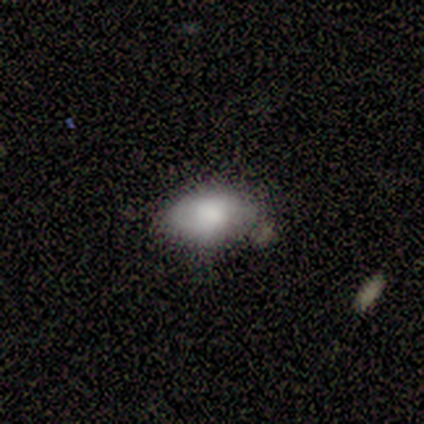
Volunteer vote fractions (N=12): Smooth or featured?
  - smooth: 75% *
  - featured or disk: 17%
  - star or artifact: 8%
How rounded?
  - in between: 100% *
  - round: 0%
  - cigar-shaped: 0%
Merging?
  - none: 64% *
  - minor disturbance: 36%
  - major disturbance: 0%
  - merger: 0%